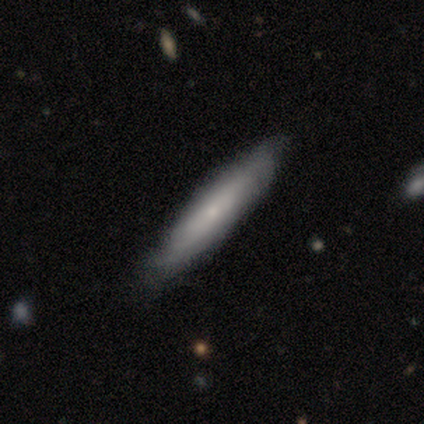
Smooth or featured? smooth (40%, tied with featured or disk)
How rounded? cigar-shaped (100%)
Merging? none (50%)